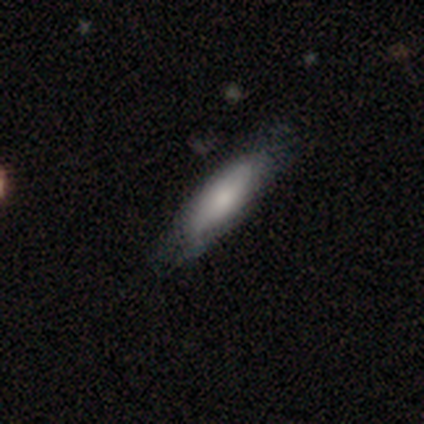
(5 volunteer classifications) This appears to be a smooth galaxy with no disk features (100%) that is cigar-shaped (60%). Merging: none (80%).